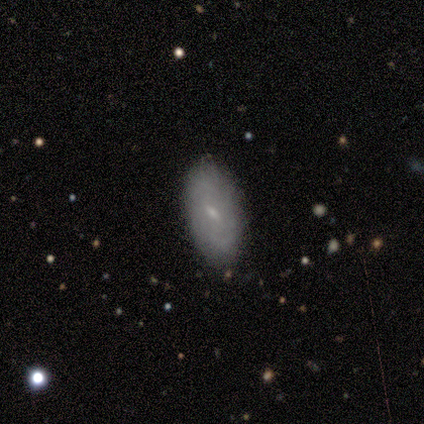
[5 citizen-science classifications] smooth_or_featured: featured or disk (p=0.60) [alt: smooth p=0.40]
disk_edge_on: no (p=1.00)
bar: weak (p=1.00)
has_spiral_arms: yes (p=1.00)
spiral_winding: loose (p=0.67) [alt: tight p=0.33]
spiral_arm_count: 2 (p=0.67) [alt: can't tell p=0.33]
bulge_size: small (p=1.00)
merging: none (p=0.80) [alt: minor disturbance p=0.20]